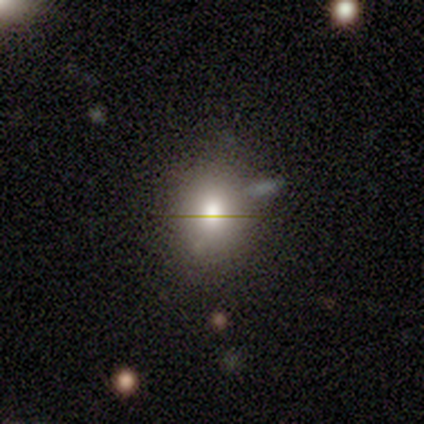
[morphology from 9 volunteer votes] Smooth or featured?
  - smooth: 56% *
  - featured or disk: 22%
  - star or artifact: 22%
How rounded?
  - round: 60% *
  - in between: 40%
  - cigar-shaped: 0%
Merging?
  - none: 43% *
  - minor disturbance: 29%
  - merger: 29%
  - major disturbance: 0%